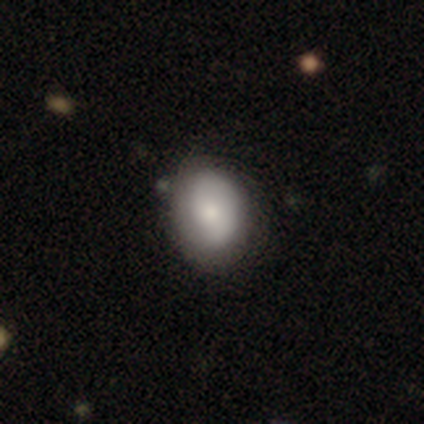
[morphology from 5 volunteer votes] This is likely a smooth galaxy (60%). How rounded: clearly in between (100%). Merging: likely minor disturbance (60%).